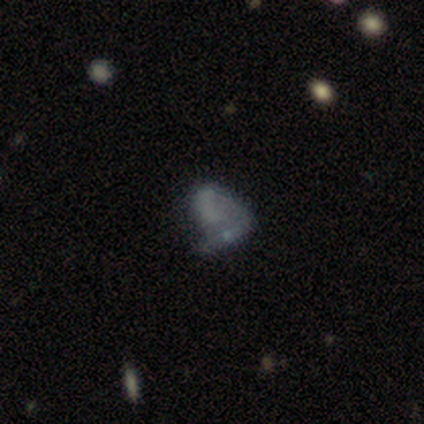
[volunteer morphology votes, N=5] This is likely a smooth galaxy (60%). How rounded: likely round (67%). Merging: marginally minor disturbance (33%, tied with major disturbance and merger).